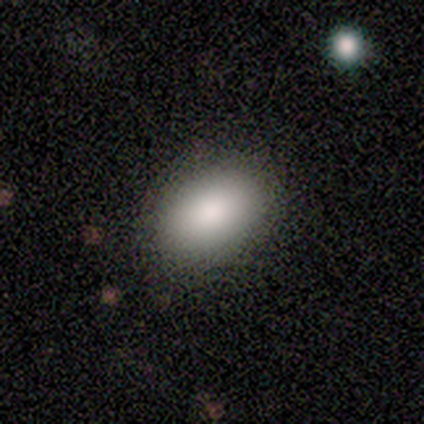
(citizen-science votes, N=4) This is clearly a smooth galaxy (100%). How rounded: likely in between (75%). Merging: clearly none (100%).